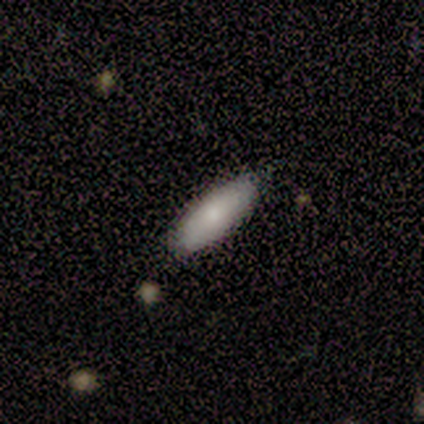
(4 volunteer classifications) This appears to be a smooth galaxy with no disk features (100%) that is in between round and cigar-shaped (75%). Merging: none (100%).